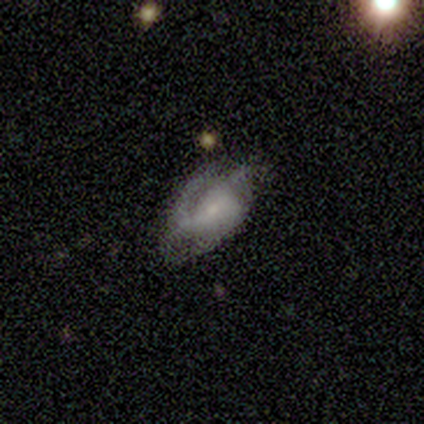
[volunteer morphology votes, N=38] This is likely a featured or disk galaxy (76%). It is clearly not viewed edge-on (93%). Bar: possibly weak (52%). Spiral arm pattern: clearly yes (81%). Spiral arm count: marginally 3 (32%). Spiral winding: marginally tight (41%). Central bulge: likely small (70%). Merging: possibly minor disturbance (47%).